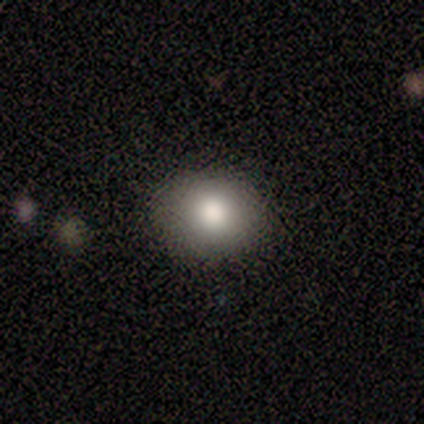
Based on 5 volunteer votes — smooth-or-featured: smooth: 80% | star or artifact: 20% | featured or disk: 0%
  how-rounded: round: 50% (tied) | in between: 50% (tied) | cigar-shaped: 0%
  merging: none: 100% | minor disturbance: 0% | major disturbance: 0% | merger: 0%